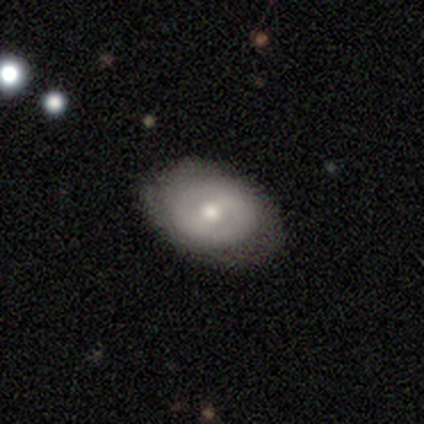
smooth 46%, featured or disk 41%, star or artifact 13%. Down the decision tree: how rounded — in between (61%); merging — none (79%).